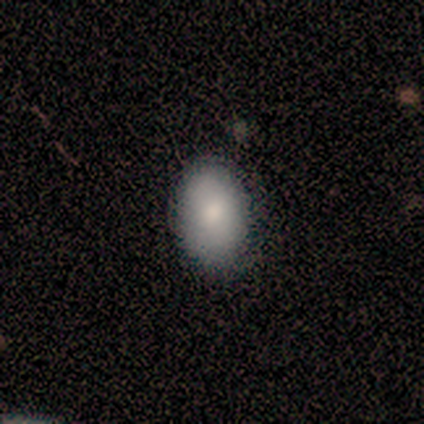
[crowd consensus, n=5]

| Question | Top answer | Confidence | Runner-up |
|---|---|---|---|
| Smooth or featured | smooth | 100% | — |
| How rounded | in between | 80% | round (20%) |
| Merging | none | 60% | minor disturbance (40%) |